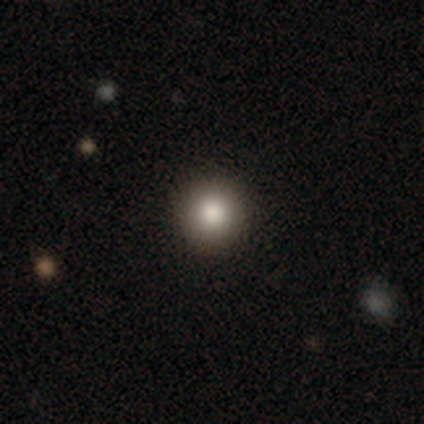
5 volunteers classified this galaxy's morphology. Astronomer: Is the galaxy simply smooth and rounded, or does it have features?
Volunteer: smooth — 80%.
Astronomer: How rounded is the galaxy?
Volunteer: round — 100%.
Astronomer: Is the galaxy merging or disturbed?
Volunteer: none — 80%.